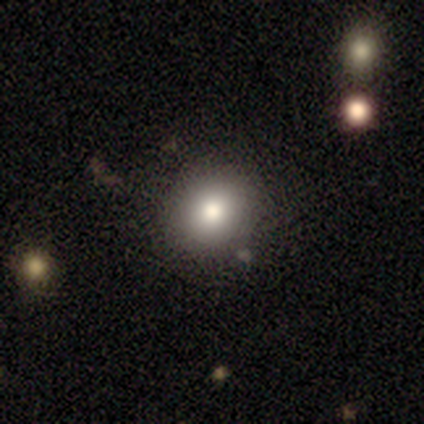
Q: Smooth or featured?
A: smooth (80%); runner-up: featured or disk (20%)
Q: How rounded?
A: round (50%); tied with: in between (50%)
Q: Merging?
A: none (40%); tied with: minor disturbance (40%)